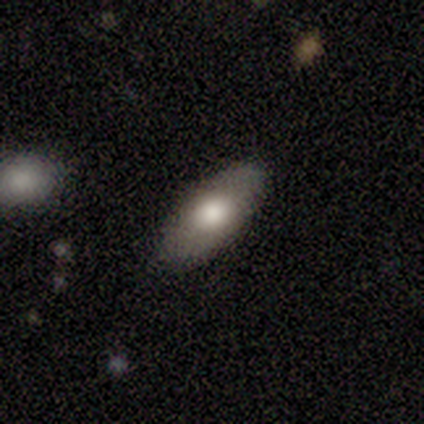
smooth 60%, featured or disk 40%, star or artifact 0%. Down the decision tree: how rounded — in between (67%); merging — none (80%).